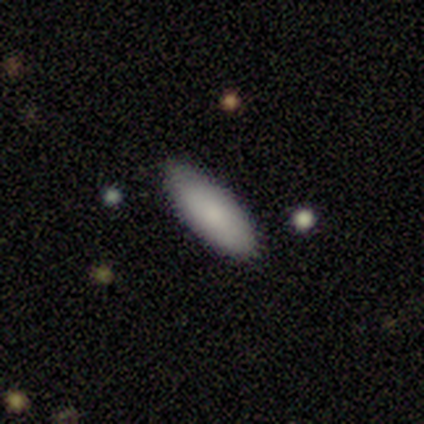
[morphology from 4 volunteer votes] Smooth or featured: smooth — 100%
How rounded: in between — 75% (cigar-shaped — 25%)
Merging: none — 100%